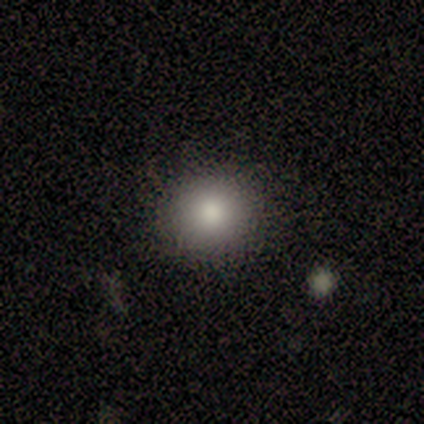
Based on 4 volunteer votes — smooth 100%, featured or disk 0%, star or artifact 0%. Down the decision tree: how rounded — round (50%, tied with in between); merging — none (100%).